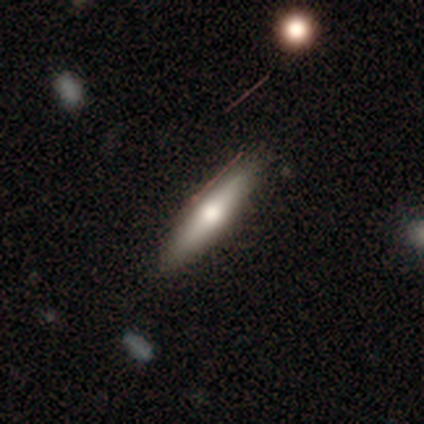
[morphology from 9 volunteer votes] featured or disk 56%, smooth 44%, star or artifact 0%. Down the decision tree: edge-on disk — yes (100%); edge-on bulge — rounded (60%); merging — none (100%).